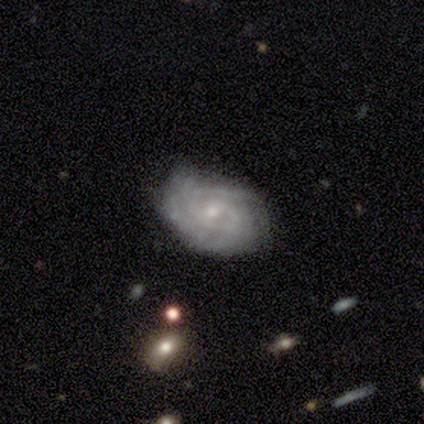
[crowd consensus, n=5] Q: Smooth or featured?
A: featured or disk (100%)
Q: Edge-on disk?
A: no (100%)
Q: Bar?
A: no (60%); runner-up: weak (40%)
Q: Spiral arms?
A: yes (100%)
Q: Spiral winding?
A: medium (60%); runner-up: tight (40%)
Q: Spiral arm count?
A: 2 (40%); tied with: can't tell (40%)
Q: Bulge size?
A: small (80%); runner-up: moderate (20%)
Q: Merging?
A: none (60%); runner-up: minor disturbance (40%)